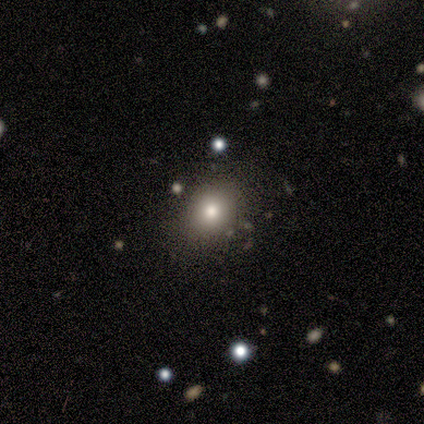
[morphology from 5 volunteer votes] Overall: smooth (100%). How rounded: in between (60%; round 40%). Merging: none (100%).